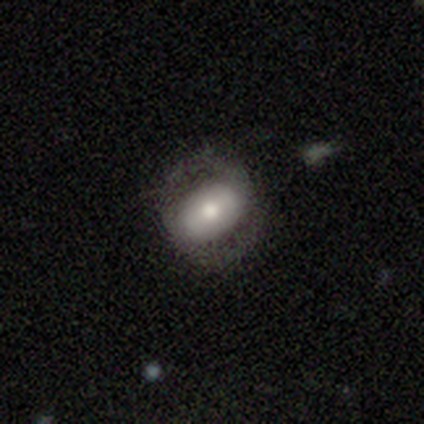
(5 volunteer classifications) Q: Smooth or featured?
A: smooth (80%); runner-up: featured or disk (20%)
Q: How rounded?
A: in between (100%)
Q: Merging?
A: none (60%); runner-up: minor disturbance (20%)